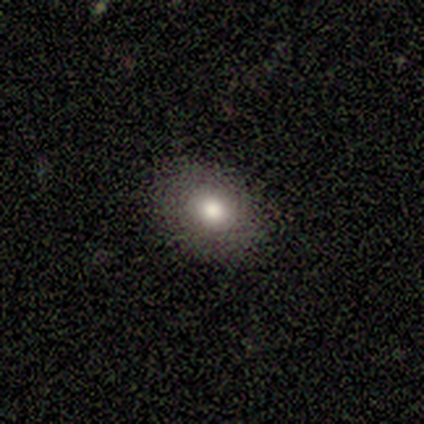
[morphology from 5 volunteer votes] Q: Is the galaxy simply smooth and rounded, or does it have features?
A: smooth — 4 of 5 (80%).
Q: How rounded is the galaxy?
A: round — 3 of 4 (75%).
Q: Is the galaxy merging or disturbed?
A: none — 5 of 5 (100%).